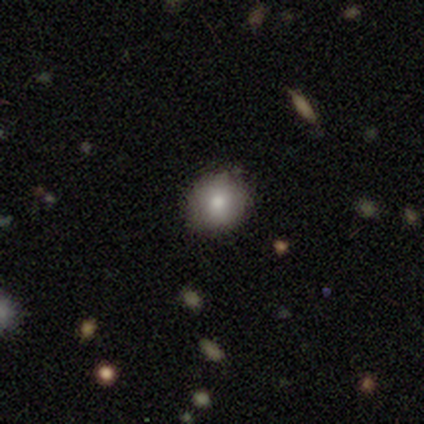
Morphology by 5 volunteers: smooth-or-featured: smooth: 80% | featured or disk: 20% | star or artifact: 0%
  how-rounded: round: 100% | in between: 0% | cigar-shaped: 0%
  merging: none: 100% | minor disturbance: 0% | major disturbance: 0% | merger: 0%